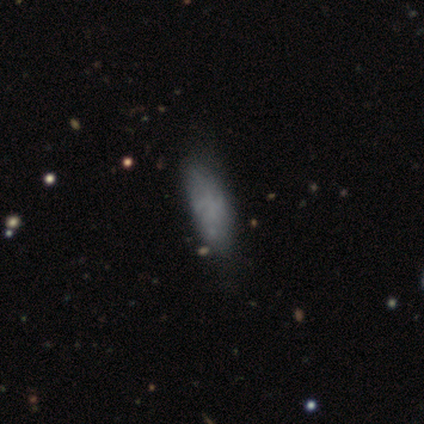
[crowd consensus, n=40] smooth_or_featured: smooth (p=0.62) [alt: featured or disk p=0.28]
how_rounded: in between (p=0.92) [alt: cigar-shaped p=0.08]
merging: none (p=0.53) [alt: minor disturbance p=0.17]